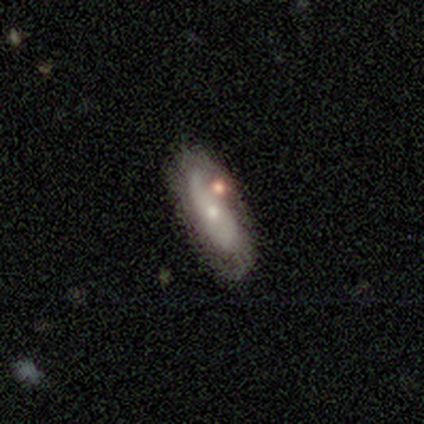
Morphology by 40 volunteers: This appears to be a featured or disk galaxy (52%) with no bar (85%), 2 (62%) loose (69%) spiral arms (80%) and a small central bulge (65%). Merging: none (63%).